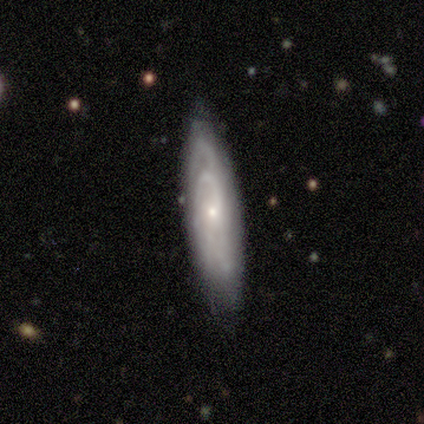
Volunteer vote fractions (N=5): Volunteers were most divided on "edge-on disk": yes: 60%, no: 40%. More confident: smooth or featured — featured or disk (100%); merging — none (80%); edge-on bulge — rounded (67%).